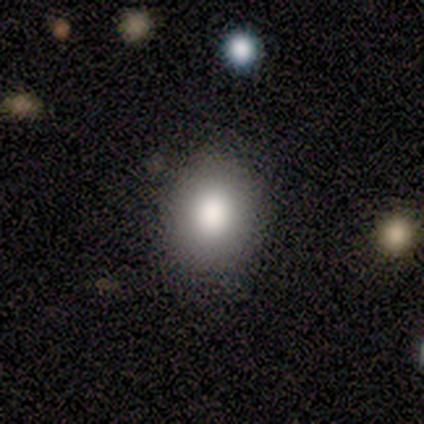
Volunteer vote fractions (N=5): Q: Smooth or featured?
A: smooth (100%)
Q: How rounded?
A: in between (80%); runner-up: round (20%)
Q: Merging?
A: none (80%); runner-up: minor disturbance (20%)